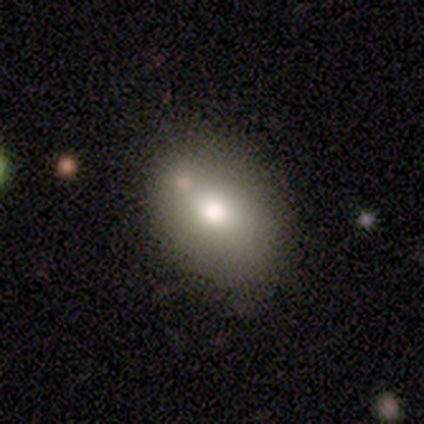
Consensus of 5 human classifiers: This is clearly a smooth galaxy (100%). How rounded: clearly in between (80%). Merging: clearly none (100%).